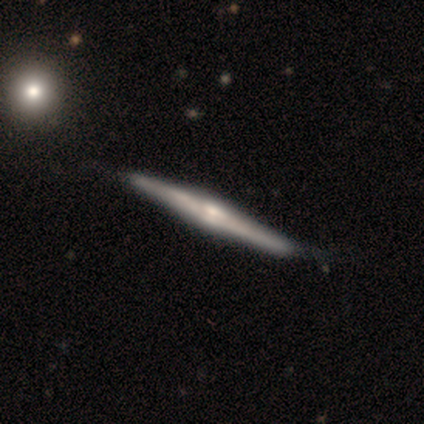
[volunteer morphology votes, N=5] Smooth or featured?
  - featured or disk: 80% *
  - smooth: 20%
  - star or artifact: 0%
Edge-on disk?
  - yes: 100% *
  - no: 0%
Edge-on bulge?
  - boxy: 75% *
  - rounded: 25%
  - none: 0%
Merging?
  - none: 80% *
  - minor disturbance: 20%
  - major disturbance: 0%
  - merger: 0%